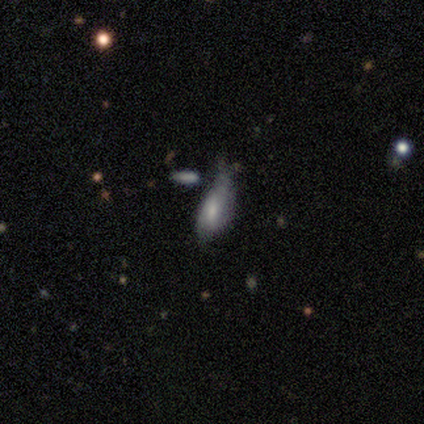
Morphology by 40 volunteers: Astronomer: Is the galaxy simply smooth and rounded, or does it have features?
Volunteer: smooth — 50% (runner-up: featured or disk, 42%).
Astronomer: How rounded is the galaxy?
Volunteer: in between — 85%.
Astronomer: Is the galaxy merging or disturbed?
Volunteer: major disturbance — 38% (runner-up: minor disturbance, 27%).